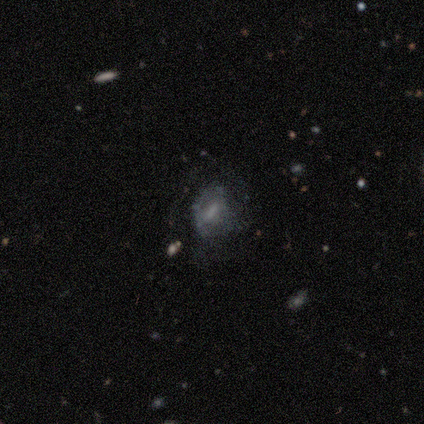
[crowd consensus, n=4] smooth 50%, featured or disk 25%, star or artifact 25%. Down the decision tree: how rounded — round (50%, tied with in between); merging — none (100%).